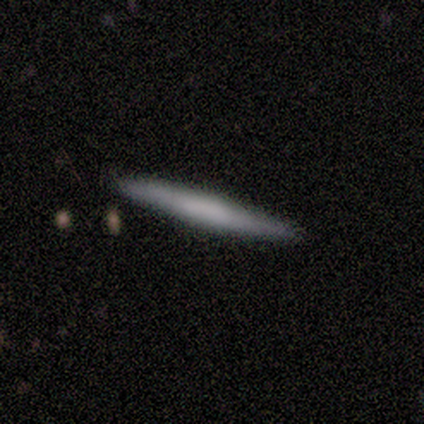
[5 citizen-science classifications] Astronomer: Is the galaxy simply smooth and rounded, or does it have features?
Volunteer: smooth — 80%.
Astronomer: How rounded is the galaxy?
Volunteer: cigar-shaped — 100%.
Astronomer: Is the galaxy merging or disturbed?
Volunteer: none — 100%.